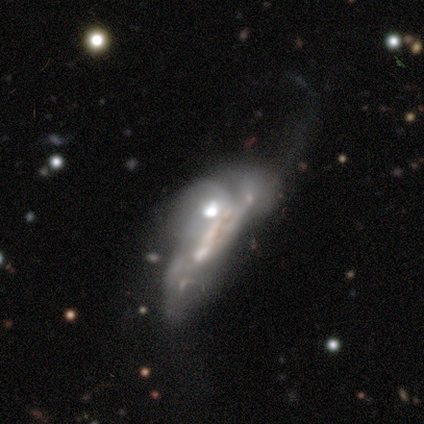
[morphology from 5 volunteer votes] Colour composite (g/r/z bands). It shows a featured or disk galaxy (80%) with a weak bar (67%), no spiral arms (67%) and a moderate central bulge (67%). Merging: merger (60%).